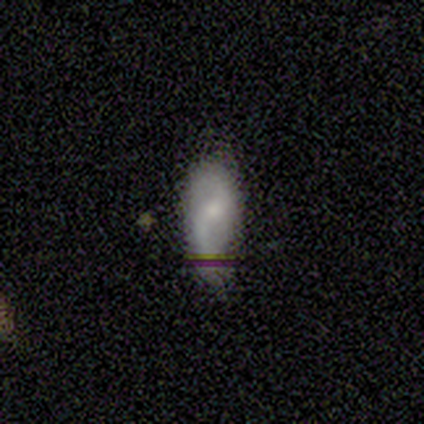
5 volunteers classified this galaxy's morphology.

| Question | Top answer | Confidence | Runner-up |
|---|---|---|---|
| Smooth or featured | smooth | 60% | featured or disk (40%) |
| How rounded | in between | 100% | — |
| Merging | none | 60% | minor disturbance (20%) |